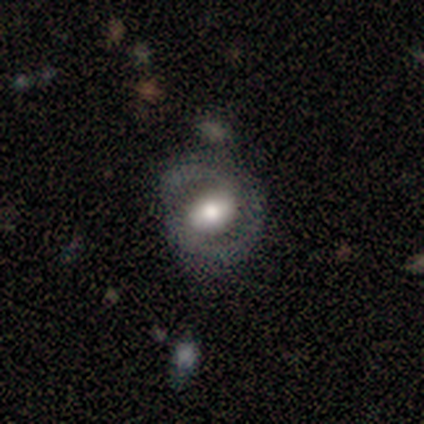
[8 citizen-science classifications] smooth_or_featured: featured or disk (p=0.88) [alt: smooth p=0.12]
disk_edge_on: no (p=0.86) [alt: yes p=0.14]
bar: strong (p=0.33) [tied with: weak p=0.33, no p=0.33]
has_spiral_arms: yes (p=0.83) [alt: no p=0.17]
spiral_winding: medium (p=0.60) [alt: loose p=0.40]
spiral_arm_count: 2 (p=1.00)
bulge_size: large (p=0.50) [alt: moderate p=0.33]
merging: minor disturbance (p=0.62) [alt: none p=0.25]